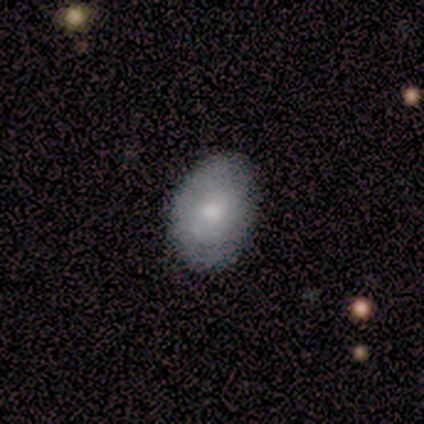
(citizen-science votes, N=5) smooth_or_featured: smooth (p=0.80) [alt: star or artifact p=0.20]
how_rounded: round (p=0.50) [tied with: in between p=0.50]
merging: none (p=1.00)